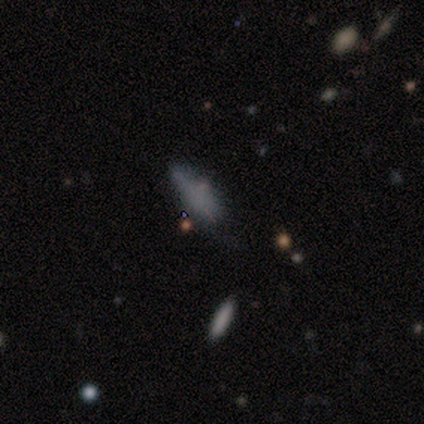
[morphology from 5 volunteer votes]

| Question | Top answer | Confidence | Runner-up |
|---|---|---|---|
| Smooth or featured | smooth | 60% | star or artifact (40%) |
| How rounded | in between | 100% | — |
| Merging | minor disturbance | 67% | none (33%) |